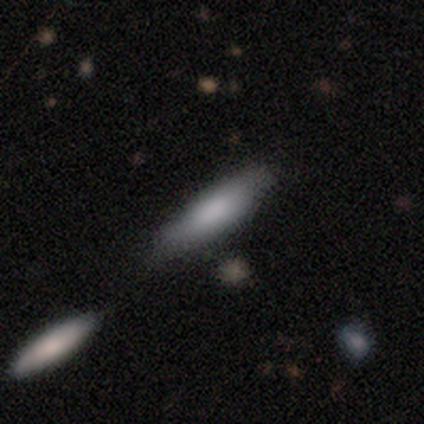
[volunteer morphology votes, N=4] Smooth or featured?
  - smooth: 50% * (tied)
  - featured or disk: 50% * (tied)
  - star or artifact: 0%
How rounded?
  - cigar-shaped: 100% *
  - round: 0%
  - in between: 0%
Merging?
  - none: 50% * (tied)
  - minor disturbance: 50% * (tied)
  - major disturbance: 0%
  - merger: 0%